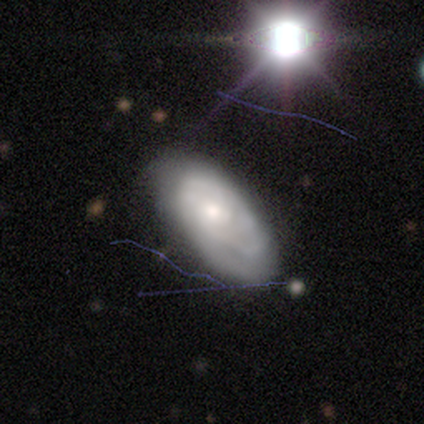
Volunteers were most divided on "bulge size": moderate: 54%, small: 34%, large: 10%, none: 2%, dominant: 0%. More confident: edge-on disk — no (100%); smooth or featured — featured or disk (87%); spiral arms — yes (83%); bar — no (80%); spiral winding — tight (74%); merging — none (67%); spiral arm count — can't tell (59%).